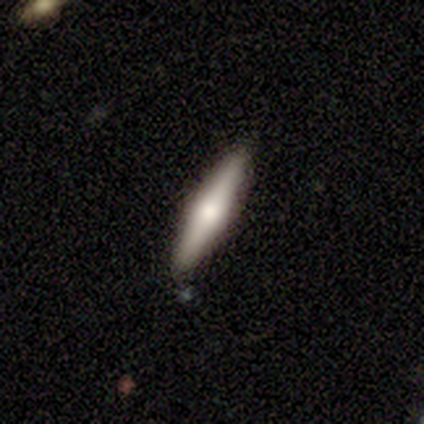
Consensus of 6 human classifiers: smooth_or_featured: featured or disk (p=0.50) [alt: smooth p=0.33]
disk_edge_on: yes (p=1.00)
edge_on_bulge: rounded (p=1.00)
merging: none (p=1.00)